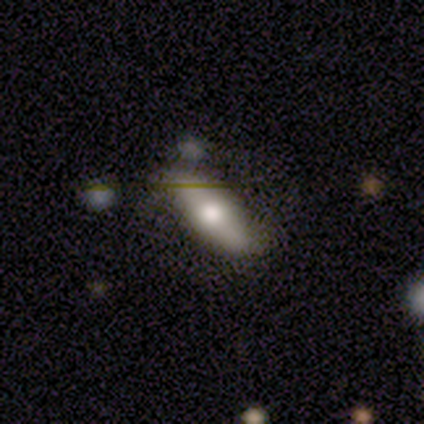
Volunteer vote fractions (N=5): smooth_or_featured: featured or disk (p=0.60) [alt: smooth p=0.40]
disk_edge_on: yes (p=1.00)
edge_on_bulge: rounded (p=1.00)
merging: none (p=0.60) [alt: minor disturbance p=0.40]